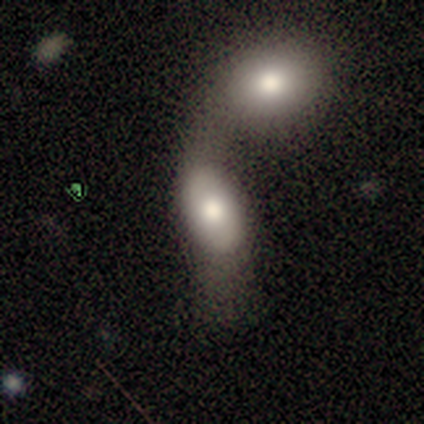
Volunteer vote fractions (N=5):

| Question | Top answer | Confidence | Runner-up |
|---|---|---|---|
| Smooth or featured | smooth | 60% | featured or disk (20%) |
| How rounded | in between | 100% | — |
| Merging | merger | 75% | none (25%) |